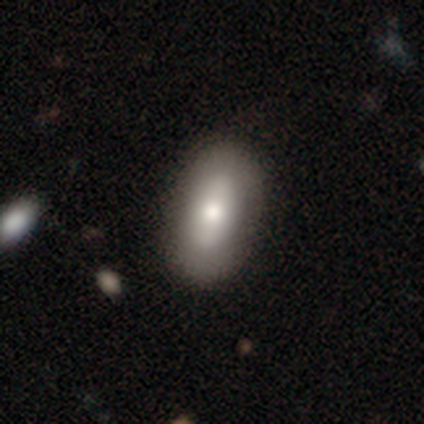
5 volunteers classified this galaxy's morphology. This is clearly a smooth galaxy (80%). How rounded: clearly in between (100%). Merging: likely none (75%).